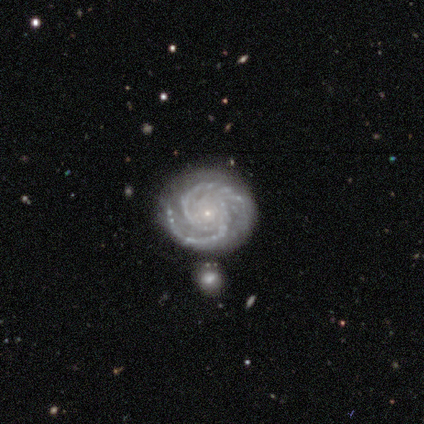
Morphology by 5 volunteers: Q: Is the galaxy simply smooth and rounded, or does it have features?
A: featured or disk — 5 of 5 (100%).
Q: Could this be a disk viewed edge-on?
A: no — 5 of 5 (100%).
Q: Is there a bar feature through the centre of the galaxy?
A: no — 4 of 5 (80%).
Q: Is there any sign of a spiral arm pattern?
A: yes — 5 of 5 (100%).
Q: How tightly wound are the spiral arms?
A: tight — 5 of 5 (100%).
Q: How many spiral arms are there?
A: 2 — 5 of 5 (100%).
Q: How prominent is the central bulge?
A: small — 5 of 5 (100%).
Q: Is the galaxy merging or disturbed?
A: none — 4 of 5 (80%).